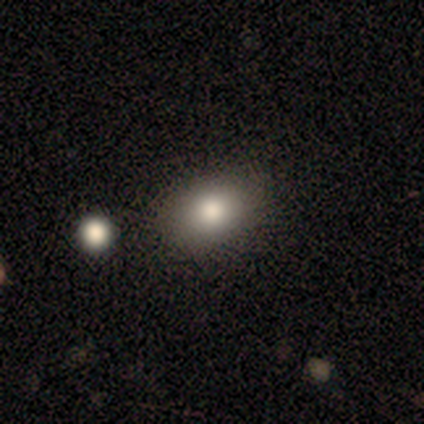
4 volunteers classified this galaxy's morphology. Volunteers were most divided on "merging": none: 75%, minor disturbance: 25%, major disturbance: 0%, merger: 0%. More confident: smooth or featured — smooth (100%); how rounded — in between (100%).